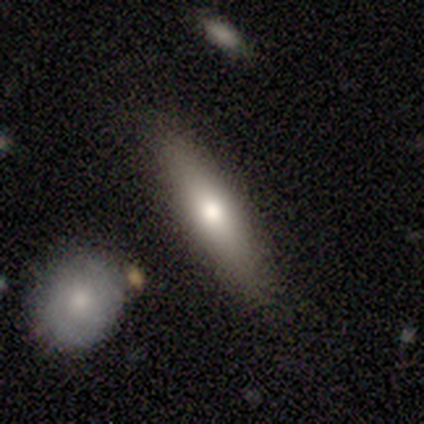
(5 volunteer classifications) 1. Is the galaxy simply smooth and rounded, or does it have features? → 60% featured or disk, 40% smooth, 0% star or artifact.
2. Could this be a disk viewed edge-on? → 67% yes, 33% no.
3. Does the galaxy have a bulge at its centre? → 100% rounded, 0% boxy, 0% none.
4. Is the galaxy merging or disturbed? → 100% none, 0% minor disturbance, 0% major disturbance, 0% merger.